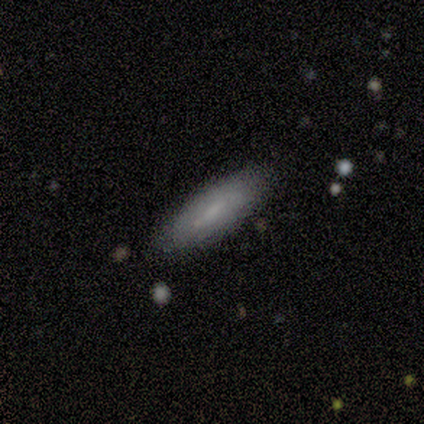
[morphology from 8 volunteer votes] A smooth galaxy with no disk features (88%) that is cigar-shaped (86%). Merging: none (100%).